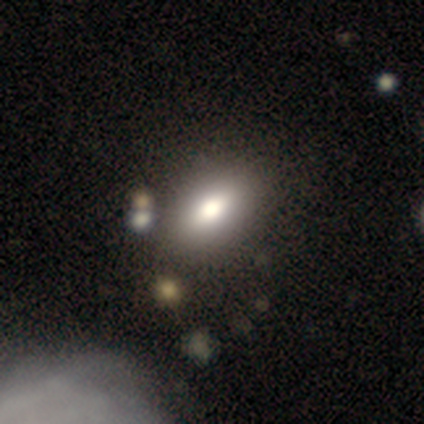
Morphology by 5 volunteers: smooth-or-featured: smooth: 60% | featured or disk: 40% | star or artifact: 0%
  how-rounded: in between: 67% | round: 33% | cigar-shaped: 0%
  merging: none: 80% | minor disturbance: 20% | major disturbance: 0% | merger: 0%